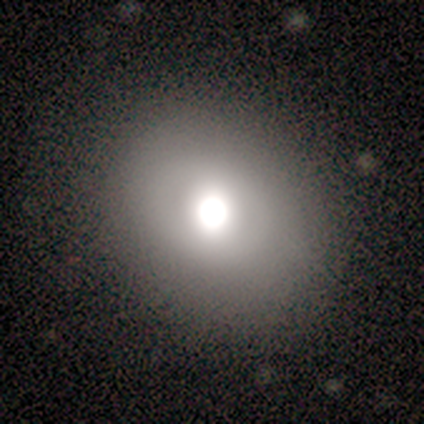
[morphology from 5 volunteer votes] smooth_or_featured: smooth (p=0.60) [alt: featured or disk p=0.40]
how_rounded: round (p=0.67) [alt: in between p=0.33]
merging: none (p=0.60) [alt: minor disturbance p=0.20]